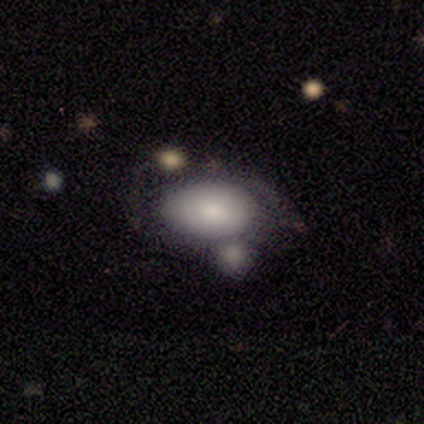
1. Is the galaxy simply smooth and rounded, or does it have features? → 63% smooth, 34% featured or disk, 3% star or artifact.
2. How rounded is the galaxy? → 79% in between, 17% round, 4% cigar-shaped.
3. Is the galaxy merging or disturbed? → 59% merger, 22% none, 11% minor disturbance, 8% major disturbance.